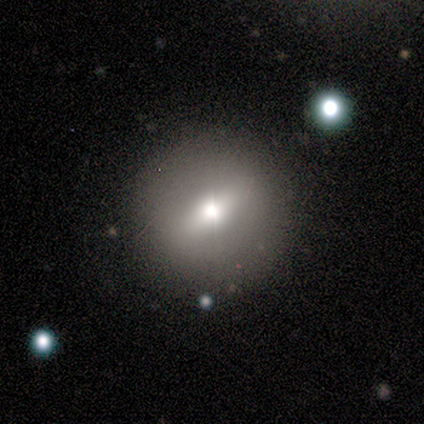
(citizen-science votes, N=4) This appears to be a featured or disk galaxy (75%) with a strong bar (50%, tied with no), no spiral arms (100%) and a large central bulge (50%, tied with moderate). Merging: none (100%).